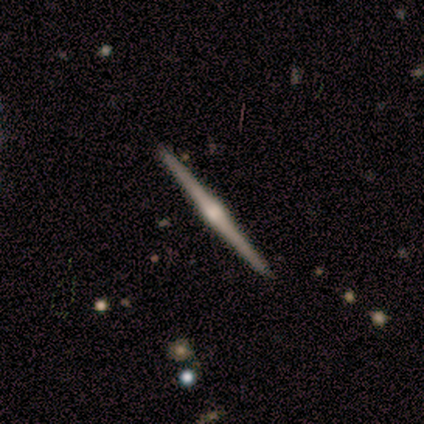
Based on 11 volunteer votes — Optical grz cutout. It shows a featured or disk galaxy (82%) viewed edge-on (100%) with a rounded central bulge (89%). Merging: none (100%).